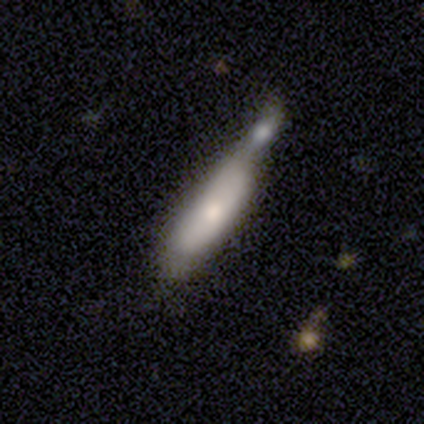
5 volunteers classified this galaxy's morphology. This appears to be a smooth galaxy with no disk features (60%) that is cigar-shaped (67%). Merging: merger (60%).